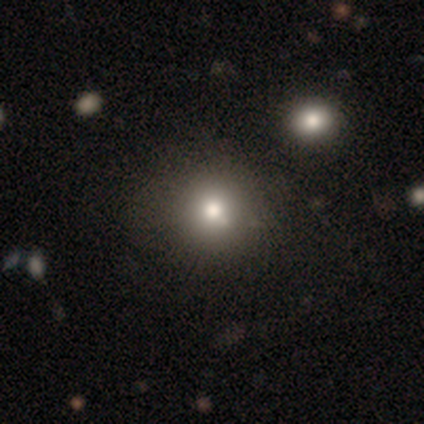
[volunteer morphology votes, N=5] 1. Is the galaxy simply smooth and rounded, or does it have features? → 100% smooth, 0% featured or disk, 0% star or artifact.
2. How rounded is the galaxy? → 100% round, 0% in between, 0% cigar-shaped.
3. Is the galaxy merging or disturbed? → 60% none, 20% minor disturbance, 20% merger, 0% major disturbance.